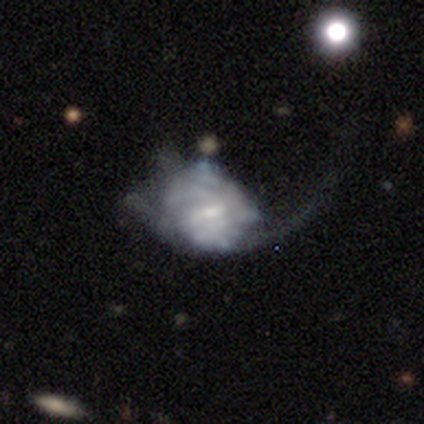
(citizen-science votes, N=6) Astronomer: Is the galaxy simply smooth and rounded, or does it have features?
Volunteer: featured or disk — 83%.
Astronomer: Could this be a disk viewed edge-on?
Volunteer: no — 100%.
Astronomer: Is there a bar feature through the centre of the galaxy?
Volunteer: weak — 80%.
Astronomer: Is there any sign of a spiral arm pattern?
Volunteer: yes — 60% (runner-up: no, 40%).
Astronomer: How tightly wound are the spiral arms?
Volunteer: tight — 67%.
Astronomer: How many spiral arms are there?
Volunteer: can't tell — 67%.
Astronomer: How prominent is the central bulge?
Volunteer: small — 80%.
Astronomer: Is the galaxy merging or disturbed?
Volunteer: minor disturbance — 50%, tied with major disturbance at 50%.